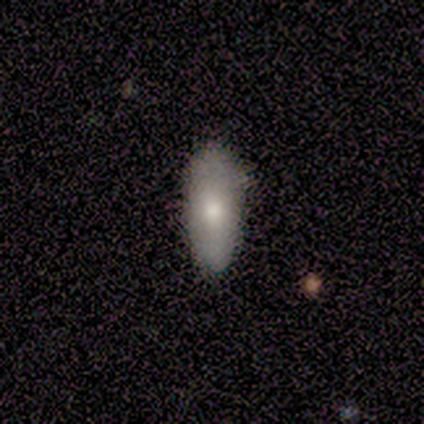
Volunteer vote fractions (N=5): This is clearly a smooth galaxy (80%). How rounded: possibly in between (50%, tied with cigar-shaped). Merging: clearly none (80%).